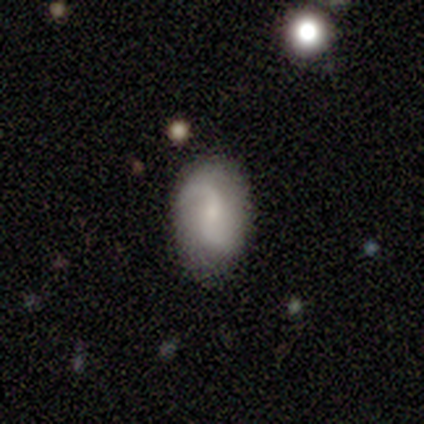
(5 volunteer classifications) Q: Smooth or featured?
A: featured or disk (60%); runner-up: smooth (20%)
Q: Edge-on disk?
A: no (100%)
Q: Bar?
A: no (67%); runner-up: weak (33%)
Q: Spiral arms?
A: yes (100%)
Q: Spiral winding?
A: loose (100%)
Q: Spiral arm count?
A: 2 (100%)
Q: Bulge size?
A: small (100%)
Q: Merging?
A: none (50%); tied with: minor disturbance (50%)